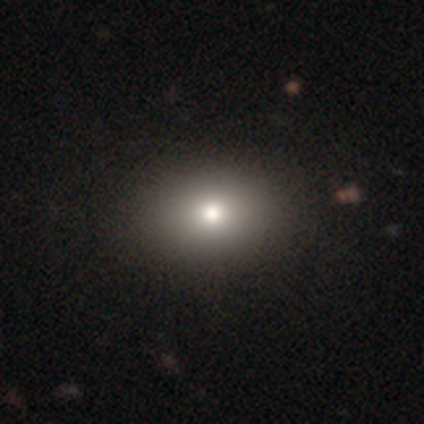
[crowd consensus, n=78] This appears to be a smooth galaxy with no disk features (81%) that is in between round and cigar-shaped (67%). Merging: none (46%).